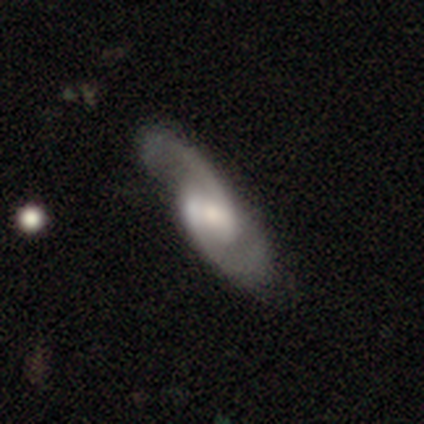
Volunteers were most divided on "bulge size": moderate: 48%, small: 35%, large: 10%, none: 5%, dominant: 3%. Remaining: spiral arms — yes (97%); spiral arm count — 2 (97%); edge-on disk — no (93%); smooth or featured — featured or disk (87%); spiral winding — medium (56%); bar — weak (52%); merging — none (41%).